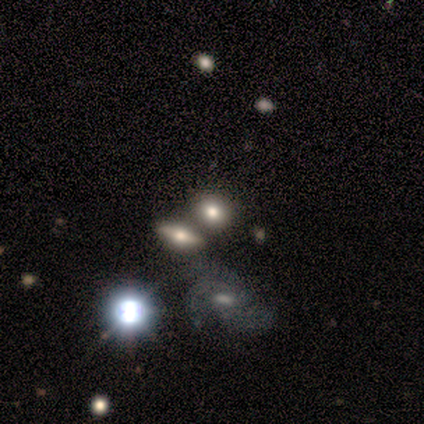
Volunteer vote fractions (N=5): This appears to be a star or artifact, not a galaxy (60%).